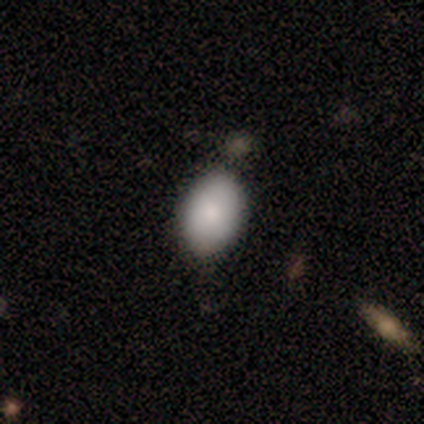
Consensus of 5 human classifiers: Volunteers were most divided on "merging": none: 60%, minor disturbance: 20%, major disturbance: 20%, merger: 0%. More confident: how rounded — in between (100%); smooth or featured — smooth (80%).